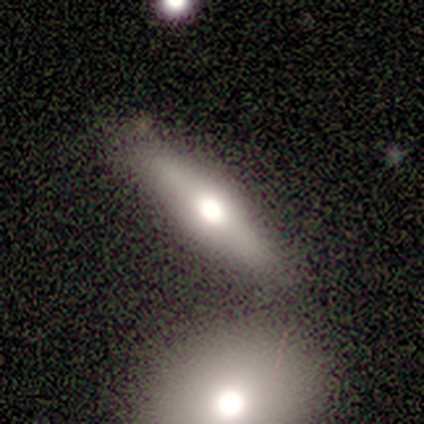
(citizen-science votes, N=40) Smooth or featured? featured or disk (72%)
Edge-on disk? yes (79%)
Edge-on bulge? rounded (91%)
Merging? none (62%)